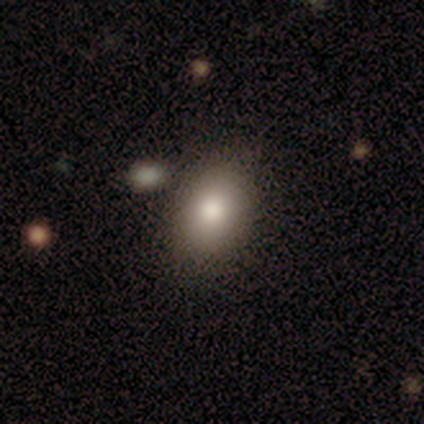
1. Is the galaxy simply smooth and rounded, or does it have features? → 85% smooth, 10% featured or disk, 5% star or artifact.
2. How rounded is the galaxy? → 76% in between, 24% round, 0% cigar-shaped.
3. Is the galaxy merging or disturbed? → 81% none, 11% minor disturbance, 8% merger, 0% major disturbance.